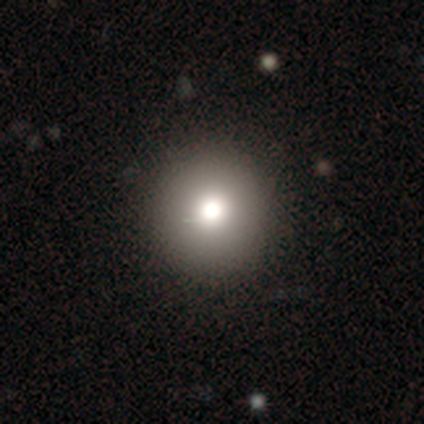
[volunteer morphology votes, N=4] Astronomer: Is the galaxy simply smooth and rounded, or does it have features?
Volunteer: smooth — 75%.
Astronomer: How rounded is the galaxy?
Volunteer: round — 100%.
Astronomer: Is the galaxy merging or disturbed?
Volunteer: none — 100%.